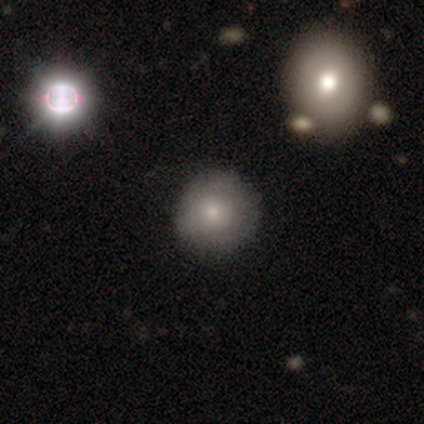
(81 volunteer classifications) smooth 58%, featured or disk 26%, star or artifact 16%. Down the decision tree: how rounded — round (94%); merging — none (46%).